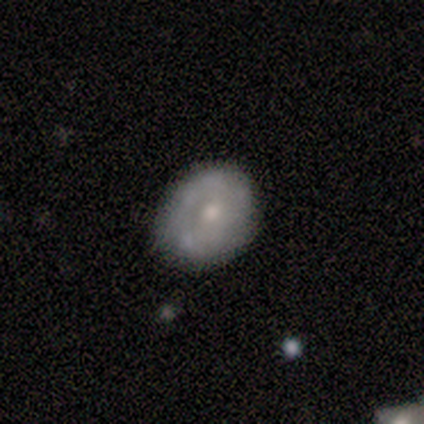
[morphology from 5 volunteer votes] A smooth galaxy with no disk features (80%) that is round (75%).

Vote fractions:
- Smooth or featured? smooth: 80% / star or artifact: 20% / featured or disk: 0%
- How rounded? round: 75% / in between: 25% / cigar-shaped: 0%
- Merging? none: 100% / minor disturbance: 0% / major disturbance: 0% / merger: 0%